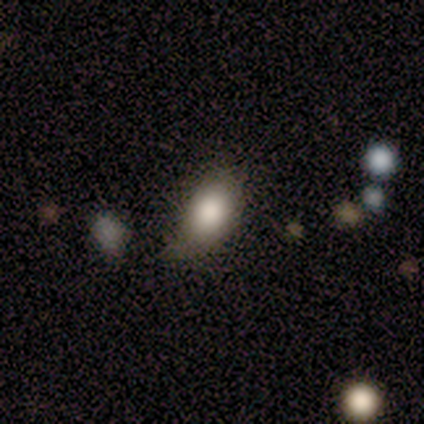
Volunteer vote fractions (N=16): Smooth or featured? 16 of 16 (100%) said smooth. How rounded? 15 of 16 (94%) said in between. Merging? 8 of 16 (50%) said minor disturbance.